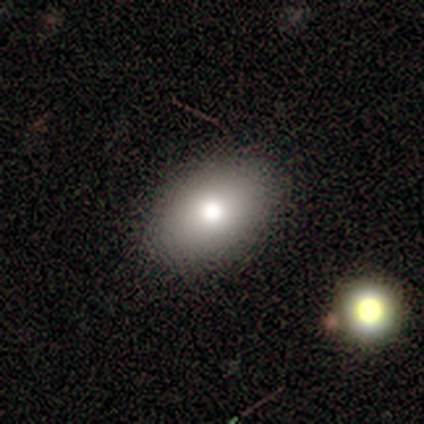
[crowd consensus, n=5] Smooth or featured?
  - smooth: 100% *
  - featured or disk: 0%
  - star or artifact: 0%
How rounded?
  - in between: 80% *
  - round: 20%
  - cigar-shaped: 0%
Merging?
  - none: 100% *
  - minor disturbance: 0%
  - major disturbance: 0%
  - merger: 0%